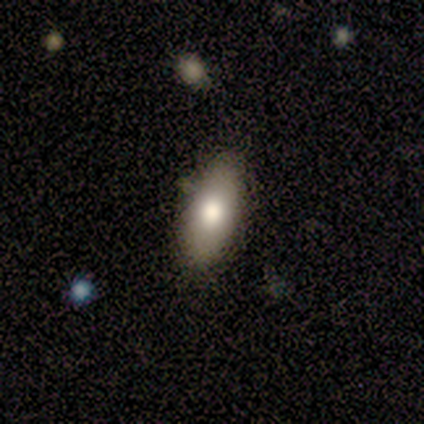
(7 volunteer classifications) Smooth or featured?
  - smooth: 86% *
  - featured or disk: 14%
  - star or artifact: 0%
How rounded?
  - in between: 83% *
  - cigar-shaped: 17%
  - round: 0%
Merging?
  - none: 86% *
  - minor disturbance: 14%
  - major disturbance: 0%
  - merger: 0%